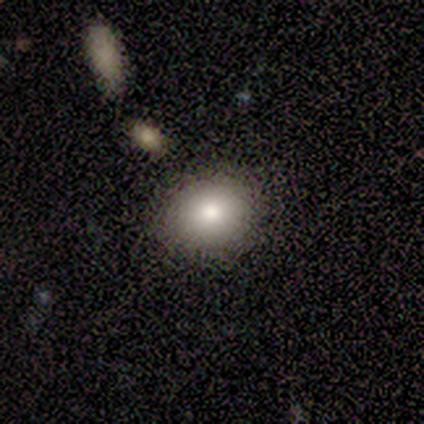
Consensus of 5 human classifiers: A smooth galaxy with no disk features (40%, tied with star or artifact) that is round (50%, tied with in between). Merging: minor disturbance (67%).